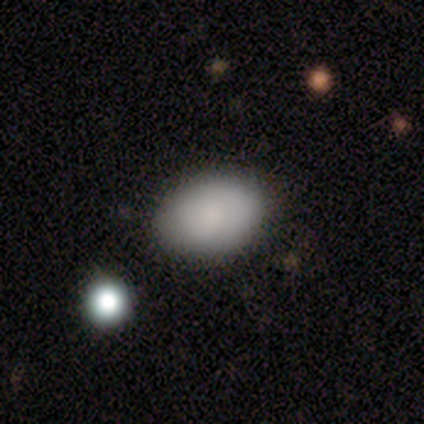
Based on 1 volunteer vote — A smooth galaxy with no disk features (100%) that is in between round and cigar-shaped (100%). Merging: none (100%).